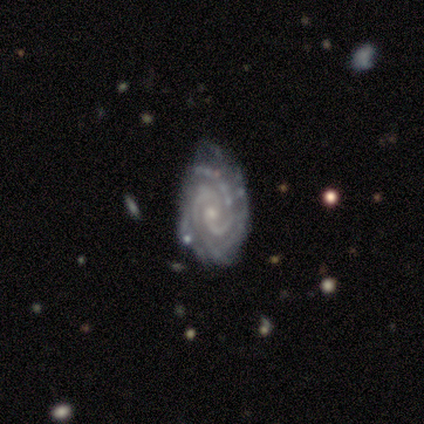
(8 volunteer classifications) A featured or disk galaxy (100%) with no bar (62%), 2 (50%) tight (62%) spiral arms (100%) and a small central bulge (100%). Merging: none (50%).